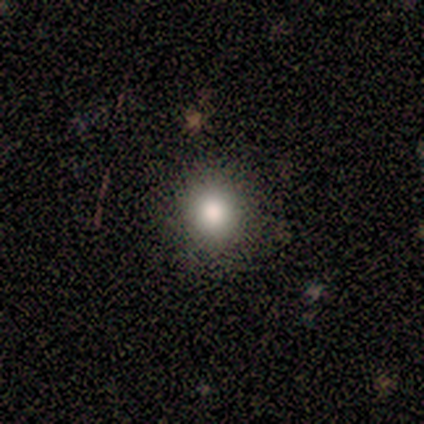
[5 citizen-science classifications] Volunteers were most divided on "smooth or featured": star or artifact: 60%, smooth: 40%, featured or disk: 0%.